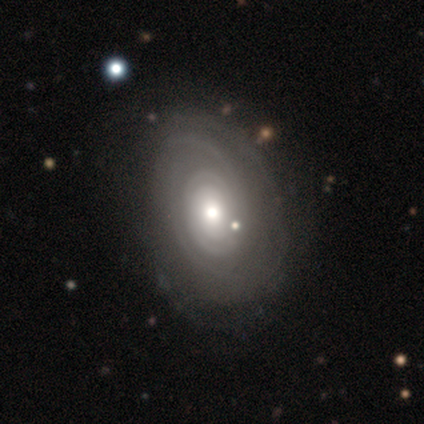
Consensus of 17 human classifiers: Q: Smooth or featured?
A: featured or disk (76%); runner-up: smooth (24%)
Q: Edge-on disk?
A: no (100%)
Q: Bar?
A: no (100%)
Q: Spiral arms?
A: yes (92%); runner-up: no (8%)
Q: Spiral winding?
A: tight (58%); runner-up: medium (42%)
Q: Spiral arm count?
A: can't tell (33%); runner-up: 2 (25%)
Q: Bulge size?
A: moderate (54%); runner-up: small (31%)
Q: Merging?
A: none (82%); runner-up: minor disturbance (12%)